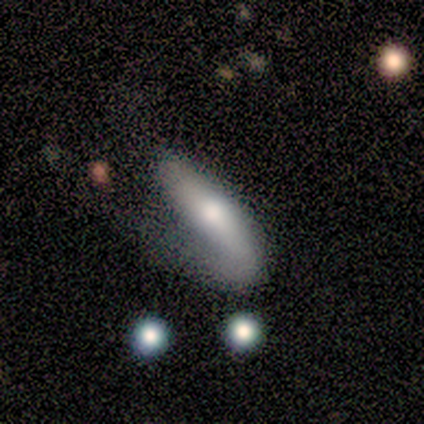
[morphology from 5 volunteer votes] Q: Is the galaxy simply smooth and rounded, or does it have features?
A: smooth — 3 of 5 (60%).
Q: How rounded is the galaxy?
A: in between — 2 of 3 (67%).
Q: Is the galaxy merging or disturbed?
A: major disturbance — 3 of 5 (60%).